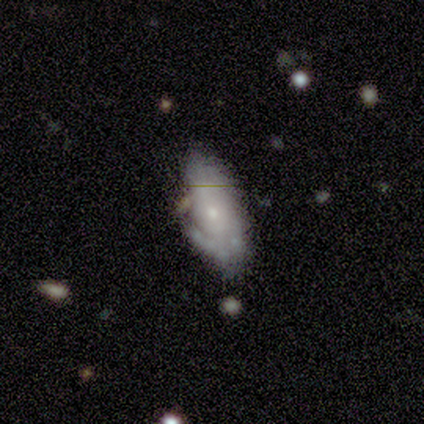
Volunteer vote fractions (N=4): This appears to be a smooth galaxy with no disk features (50%, tied with featured or disk) that is in between round and cigar-shaped (100%). Merging: minor disturbance (50%).